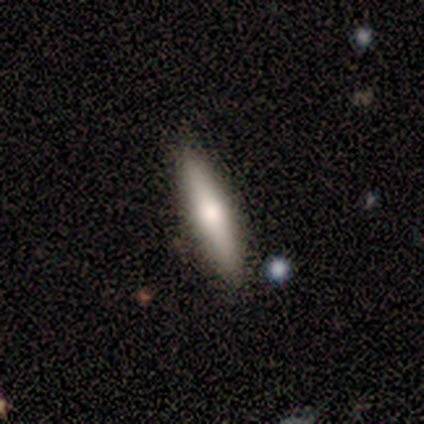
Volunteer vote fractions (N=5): smooth 60%, featured or disk 40%, star or artifact 0%. Down the decision tree: how rounded — cigar-shaped (67%); merging — none (100%).